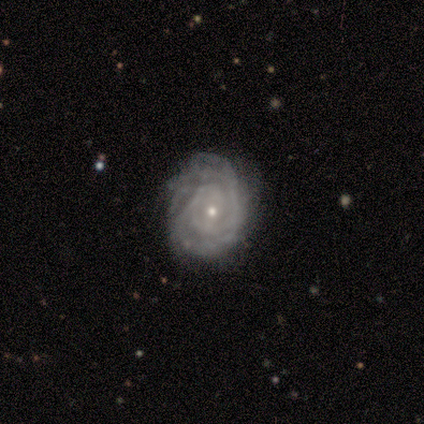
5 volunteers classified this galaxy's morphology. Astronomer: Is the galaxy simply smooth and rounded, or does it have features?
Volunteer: featured or disk — 100%.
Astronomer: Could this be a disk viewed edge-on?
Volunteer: no — 100%.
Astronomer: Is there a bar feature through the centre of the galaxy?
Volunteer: no — 60% (runner-up: weak, 40%).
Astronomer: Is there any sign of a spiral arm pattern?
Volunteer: yes — 100%.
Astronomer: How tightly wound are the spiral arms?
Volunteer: tight — 60%.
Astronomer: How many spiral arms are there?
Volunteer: can't tell — 60%.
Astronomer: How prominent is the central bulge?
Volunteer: small — 80%.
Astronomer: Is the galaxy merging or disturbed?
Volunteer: none — 100%.